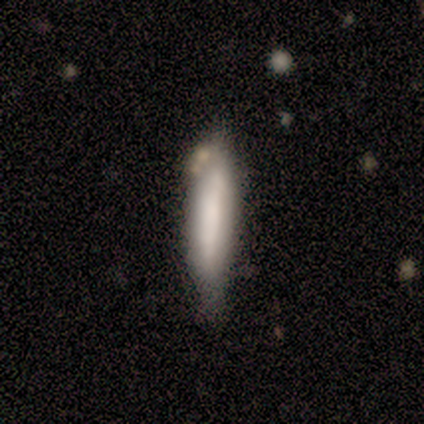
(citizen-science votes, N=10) Q: Smooth or featured?
A: smooth (80%); runner-up: featured or disk (10%)
Q: How rounded?
A: cigar-shaped (100%)
Q: Merging?
A: none (78%); runner-up: minor disturbance (22%)